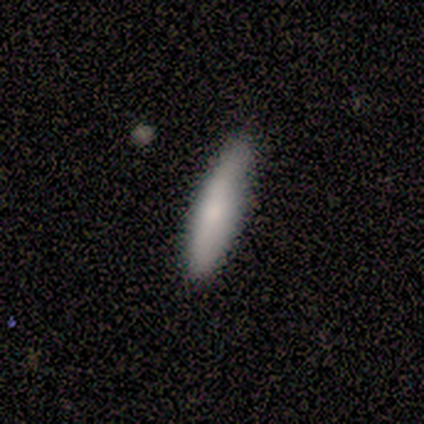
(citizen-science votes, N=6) Smooth or featured: smooth — 83% (featured or disk — 17%)
How rounded: cigar-shaped — 80% (in between — 20%)
Merging: none — 100%